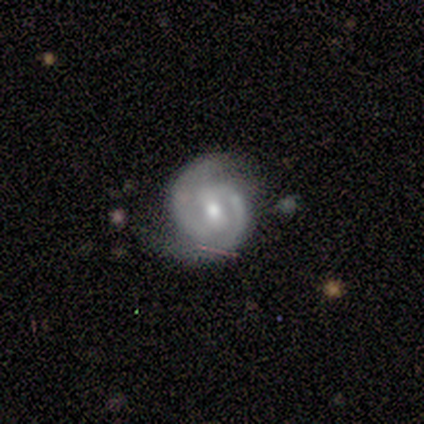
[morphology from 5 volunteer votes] smooth_or_featured: featured or disk (p=0.80) [alt: smooth p=0.20]
disk_edge_on: no (p=1.00)
bar: weak (p=0.75) [alt: no p=0.25]
has_spiral_arms: yes (p=1.00)
spiral_winding: tight (p=1.00)
spiral_arm_count: 2 (p=0.75) [alt: 1 p=0.25]
bulge_size: small (p=1.00)
merging: none (p=0.80) [alt: minor disturbance p=0.20]